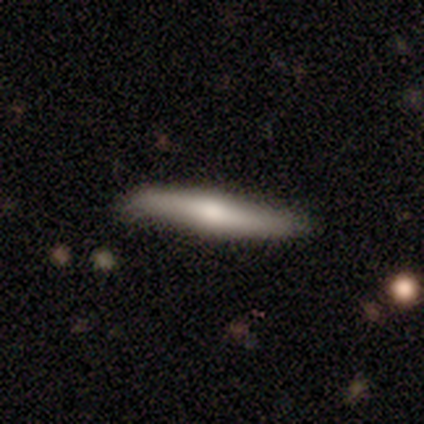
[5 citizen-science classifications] Overall: featured or disk (60%; star or artifact 40%). Edge-on disk: yes (100%). Edge-on bulge: rounded (100%). Merging: minor disturbance (67%; none 33%).